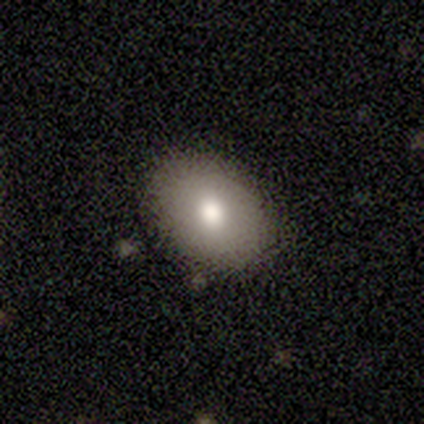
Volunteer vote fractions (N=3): smooth-or-featured: smooth: 100% | featured or disk: 0% | star or artifact: 0%
  how-rounded: in between: 67% | round: 33% | cigar-shaped: 0%
  merging: minor disturbance: 100% | none: 0% | major disturbance: 0% | merger: 0%